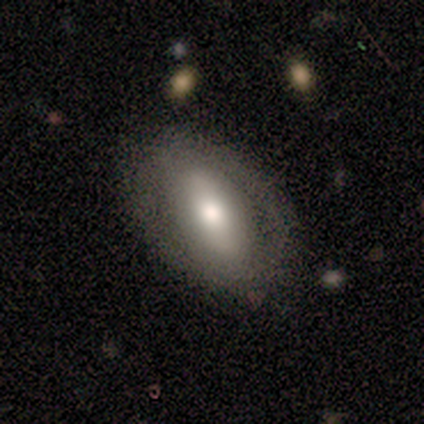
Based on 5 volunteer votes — Q: Smooth or featured?
A: smooth (80%); runner-up: featured or disk (20%)
Q: How rounded?
A: in between (75%); runner-up: round (25%)
Q: Merging?
A: none (100%)